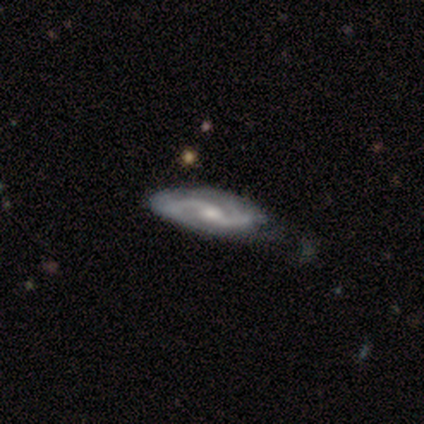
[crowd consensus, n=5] Overall: featured or disk (80%). Edge-on disk: no (75%). Bar: no (67%; strong 33%). Spiral arms: yes (100%). Spiral arm count: 2 (67%; can't tell 33%). Spiral winding: tight (33%, tied with medium and loose). Bulge size: small (67%; moderate 33%). Merging: minor disturbance (40%, tied with major disturbance).